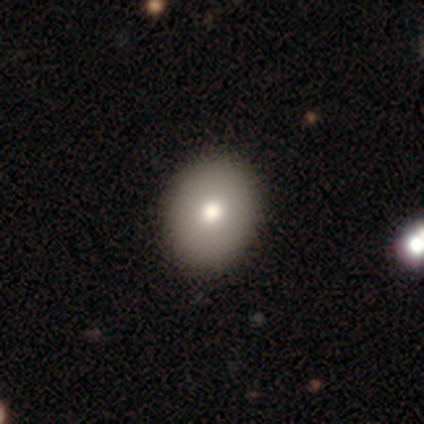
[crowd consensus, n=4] Smooth or featured? smooth (75%)
How rounded? in between (67%)
Merging? none (100%)